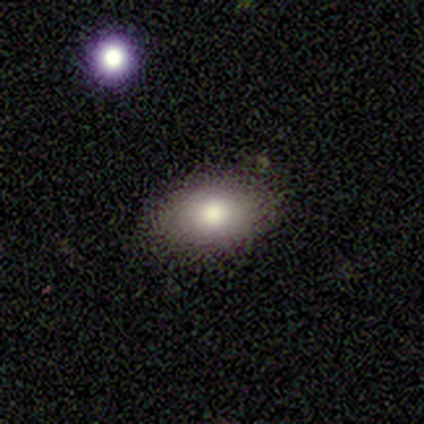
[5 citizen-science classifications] A smooth galaxy with no disk features (80%) that is in between round and cigar-shaped (75%). Merging: none (100%).